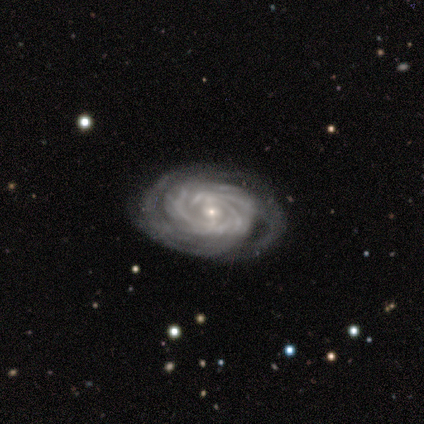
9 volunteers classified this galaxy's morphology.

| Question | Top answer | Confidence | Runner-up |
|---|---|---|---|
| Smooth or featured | featured or disk | 89% | star or artifact (11%) |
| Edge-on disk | no | 100% | — |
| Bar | weak | 50% | tied: no (50%) |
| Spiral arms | yes | 88% | no (12%) |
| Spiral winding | tight | 86% | medium (14%) |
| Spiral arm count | more than 4 | 57% | can't tell (29%) |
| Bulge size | small | 88% | moderate (12%) |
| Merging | none | 75% | minor disturbance (12%) |